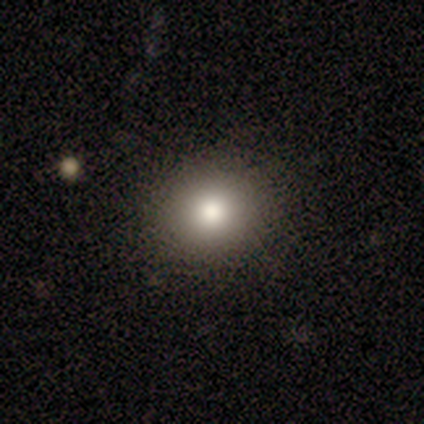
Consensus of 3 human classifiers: A smooth galaxy with no disk features (100%) that is round (100%). Merging: none (67%).